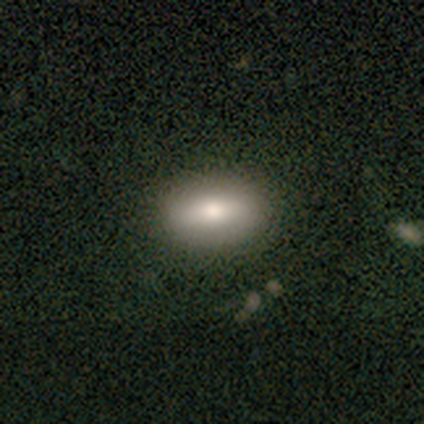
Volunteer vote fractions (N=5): Overall: smooth (100%). How rounded: in between (100%). Merging: none (100%).